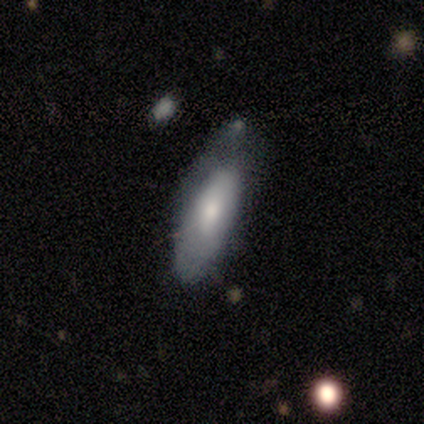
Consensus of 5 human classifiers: Volunteers were most divided on "merging" (2-way tie): minor disturbance: 40%, major disturbance: 40%, none: 20%, merger: 0%. More confident: smooth or featured — smooth (80%); how rounded — in between (75%).